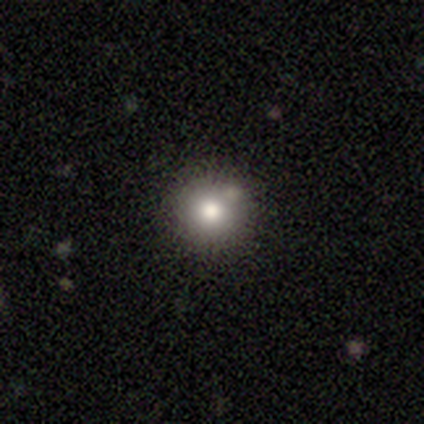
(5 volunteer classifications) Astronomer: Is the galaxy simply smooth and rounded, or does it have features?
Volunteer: smooth — 80%.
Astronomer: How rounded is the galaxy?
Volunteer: round — 100%.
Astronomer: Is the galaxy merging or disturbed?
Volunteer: none — 75%.